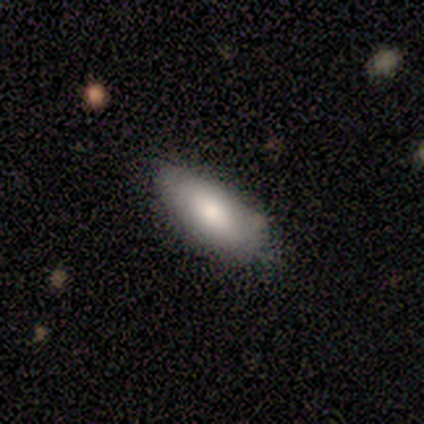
Smooth or featured?
  - smooth: 80% *
  - star or artifact: 20%
  - featured or disk: 0%
How rounded?
  - in between: 100% *
  - round: 0%
  - cigar-shaped: 0%
Merging?
  - none: 100% *
  - minor disturbance: 0%
  - major disturbance: 0%
  - merger: 0%